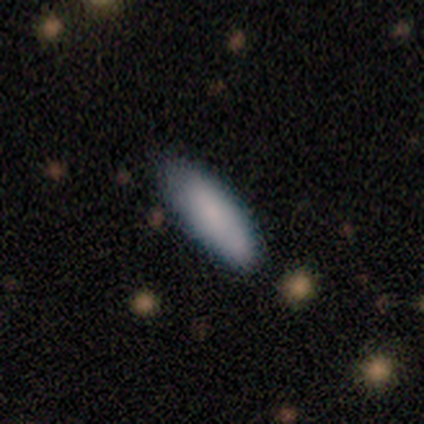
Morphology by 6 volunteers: Overall: smooth (83%). How rounded: in between (60%; cigar-shaped 40%). Merging: none (67%; minor disturbance 33%).